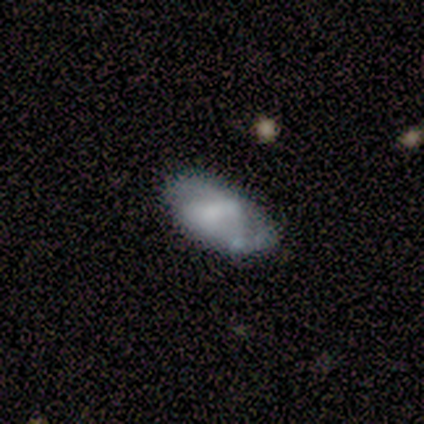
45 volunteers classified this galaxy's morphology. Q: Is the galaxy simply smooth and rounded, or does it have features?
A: smooth — 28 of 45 (62%).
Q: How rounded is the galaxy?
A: in between — 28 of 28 (100%).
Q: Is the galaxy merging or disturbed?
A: none — 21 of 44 (48%).